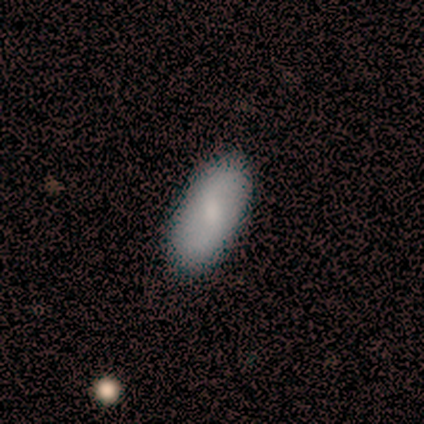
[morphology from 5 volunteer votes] This appears to be a featured or disk galaxy (60%) with a strong bar (33%, tied with weak and no), 2 (100%) loose (67%) spiral arms (100%) and a small central bulge (100%). Merging: none (100%).